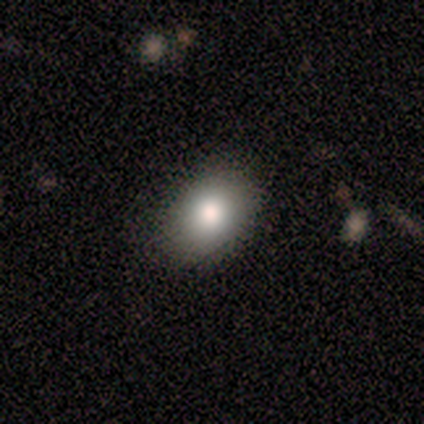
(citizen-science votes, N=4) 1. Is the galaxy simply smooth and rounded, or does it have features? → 75% smooth, 25% star or artifact, 0% featured or disk.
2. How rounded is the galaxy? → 100% in between, 0% round, 0% cigar-shaped.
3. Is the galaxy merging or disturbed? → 100% none, 0% minor disturbance, 0% major disturbance, 0% merger.